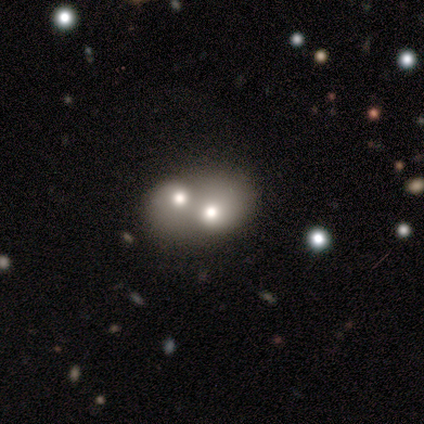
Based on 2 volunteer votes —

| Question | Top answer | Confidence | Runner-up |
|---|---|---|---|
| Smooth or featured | smooth | 50% | tied: star or artifact (50%) |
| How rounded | in between | 100% | — |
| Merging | merger | 100% | — |